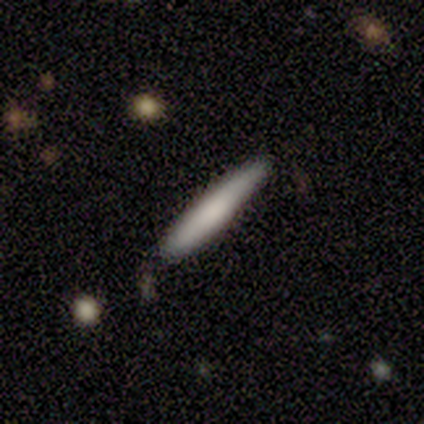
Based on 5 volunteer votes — smooth_or_featured: smooth (p=0.80) [alt: featured or disk p=0.20]
how_rounded: cigar-shaped (p=1.00)
merging: none (p=0.80) [alt: minor disturbance p=0.20]